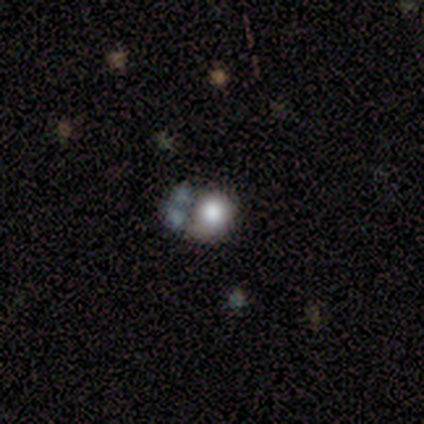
A smooth galaxy with no disk features (100%) that is round (100%).

Vote fractions:
- Smooth or featured? smooth: 100% / featured or disk: 0% / star or artifact: 0%
- How rounded? round: 100% / in between: 0% / cigar-shaped: 0%
- Merging? major disturbance: 40% / none: 20% / minor disturbance: 20% / merger: 20%